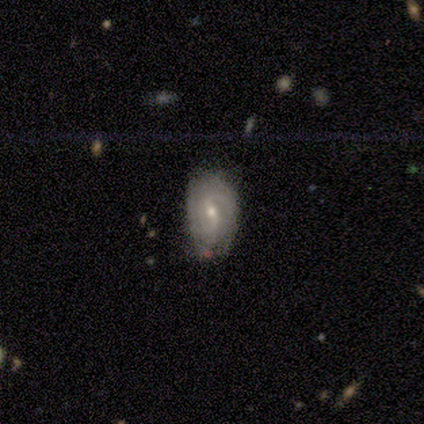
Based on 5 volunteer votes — Volunteers were most divided on "spiral winding": tight: 67%, medium: 33%, loose: 0%. More confident: edge-on disk — no (100%); bar — weak (100%); spiral arms — yes (100%); merging — none (100%); spiral arm count — can't tell (67%); bulge size — small (67%); smooth or featured — featured or disk (60%).